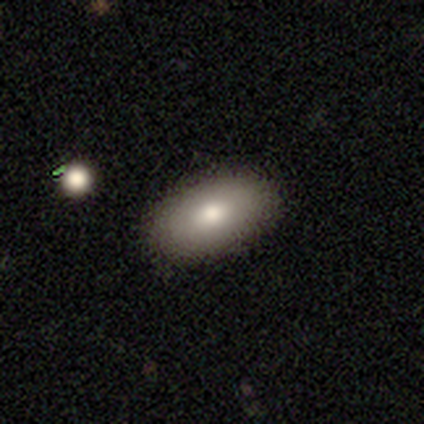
Consensus on every question: smooth or featured — smooth (100%); how rounded — in between (100%); merging — none (100%).